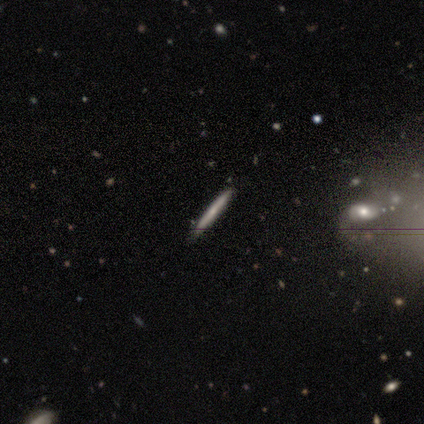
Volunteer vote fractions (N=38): Morphology: type=featured or disk (55%); edge-on=yes (90%); edge-on bulge=none (63%); merging=none (92%).